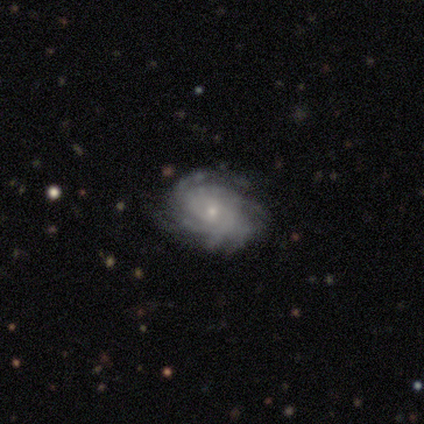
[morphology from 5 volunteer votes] This appears to be a featured or disk galaxy (100%) with no bar (60%), more than 4 (60%) tight (80%) spiral arms (100%) and a small central bulge (80%). Merging: none (100%).